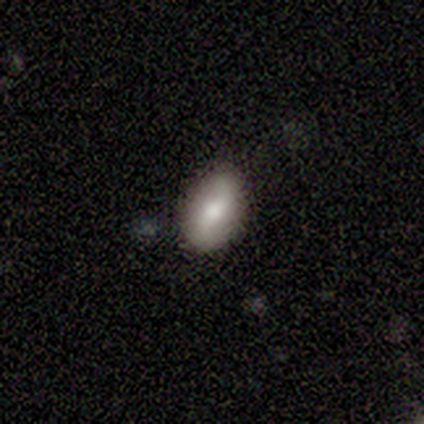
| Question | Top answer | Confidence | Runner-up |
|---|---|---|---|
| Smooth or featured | featured or disk | 60% | smooth (40%) |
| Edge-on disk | no | 100% | — |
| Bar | weak | 100% | — |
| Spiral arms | yes | 100% | — |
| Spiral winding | loose | 67% | tight (33%) |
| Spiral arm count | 2 | 100% | — |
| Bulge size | moderate | 67% | small (33%) |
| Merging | none | 80% | minor disturbance (20%) |